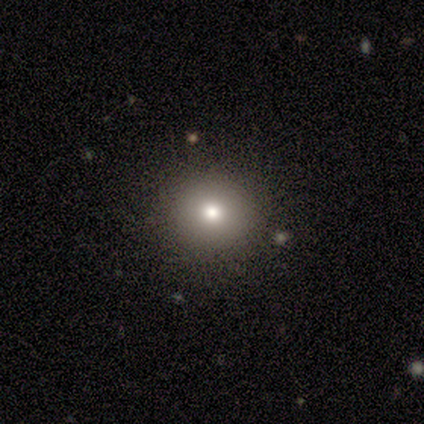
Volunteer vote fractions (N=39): Smooth or featured: smooth — 67% (star or artifact — 26%)
How rounded: round — 92% (in between — 8%)
Merging: none — 86% (minor disturbance — 14%)